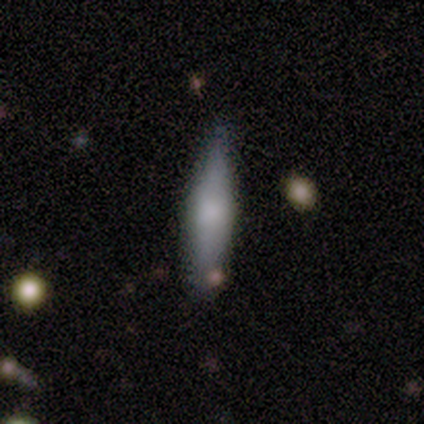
A smooth galaxy with no disk features (83%) that is cigar-shaped (80%).

Vote fractions:
- Smooth or featured? smooth: 83% / featured or disk: 17% / star or artifact: 0%
- How rounded? cigar-shaped: 80% / in between: 20% / round: 0%
- Merging? none: 100% / minor disturbance: 0% / major disturbance: 0% / merger: 0%